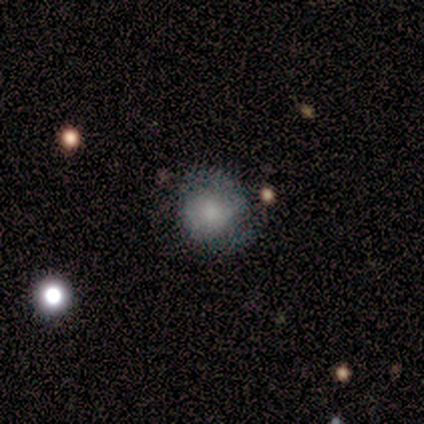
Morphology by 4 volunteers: This is likely a smooth galaxy (75%). How rounded: likely round (67%). Merging: possibly none (50%, tied with minor disturbance).